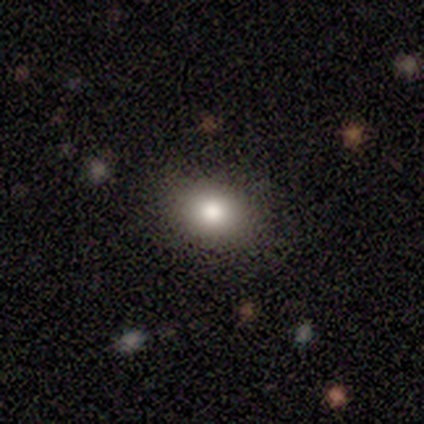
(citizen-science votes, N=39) Smooth or featured? smooth (87%)
How rounded? in between (53%)
Merging? none (91%)